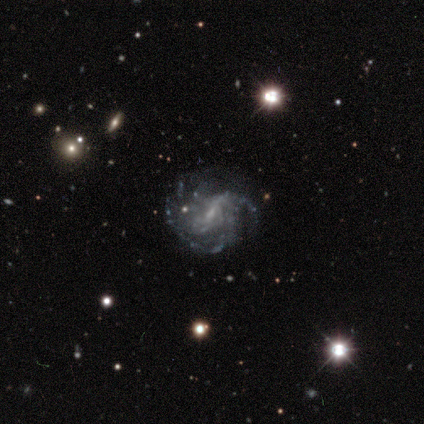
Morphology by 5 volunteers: Volunteers were most divided on "merging" (2-way tie): none: 50%, minor disturbance: 50%, major disturbance: 0%, merger: 0%. More confident: edge-on disk — no (100%); spiral arms — yes (100%); smooth or featured — featured or disk (80%); bar — weak (75%); bulge size — small (75%); spiral winding — tight (50%); spiral arm count — can't tell (50%).